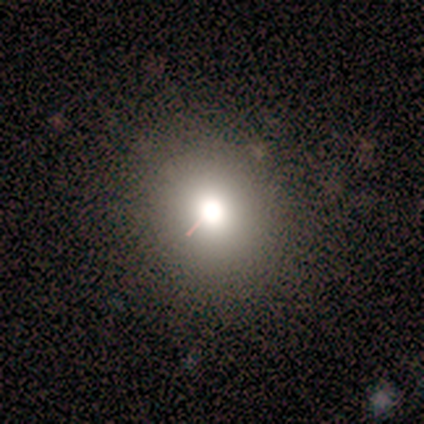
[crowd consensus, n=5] smooth 80%, star or artifact 20%, featured or disk 0%. Down the decision tree: how rounded — round (100%); merging — none (100%).